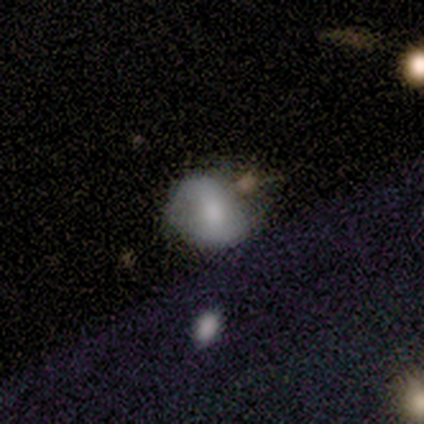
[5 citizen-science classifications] Smooth or featured?
  - smooth: 80% *
  - star or artifact: 20%
  - featured or disk: 0%
How rounded?
  - round: 50% * (tied)
  - in between: 50% * (tied)
  - cigar-shaped: 0%
Merging?
  - none: 50% * (tied)
  - minor disturbance: 50% * (tied)
  - major disturbance: 0%
  - merger: 0%